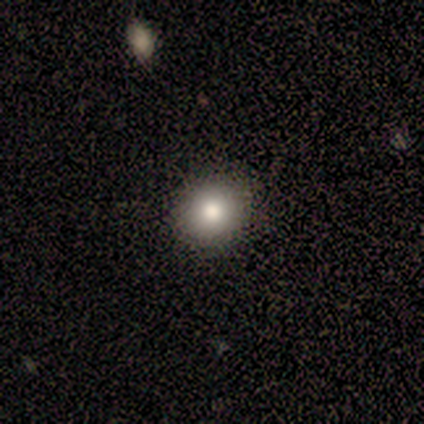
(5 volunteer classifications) smooth 80%, star or artifact 20%, featured or disk 0%. Down the decision tree: how rounded — round (75%); merging — none (100%).